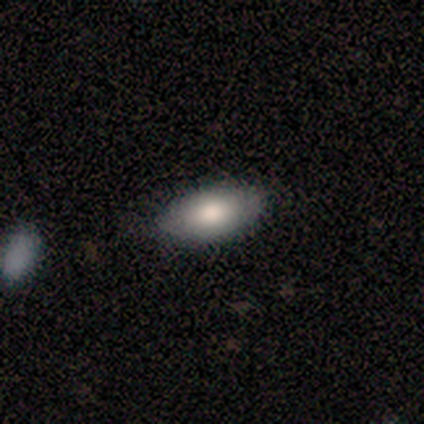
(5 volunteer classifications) A smooth galaxy with no disk features (80%) that is in between round and cigar-shaped (100%).

Vote fractions:
- Smooth or featured? smooth: 80% / featured or disk: 20% / star or artifact: 0%
- How rounded? in between: 100% / round: 0% / cigar-shaped: 0%
- Merging? none: 60% / minor disturbance: 40% / major disturbance: 0% / merger: 0%